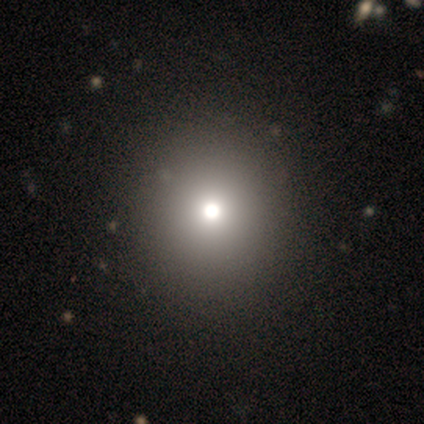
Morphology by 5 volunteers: smooth 40% (tied), star or artifact 40% (tied), featured or disk 20%. Down the decision tree: how rounded — round (100%); merging — none (100%).